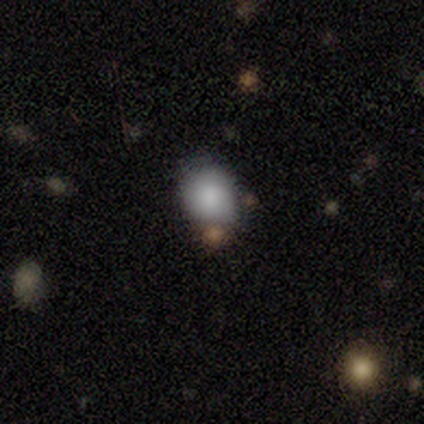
A smooth galaxy with no disk features (100%) that is round (80%). Merging: minor disturbance (40%).